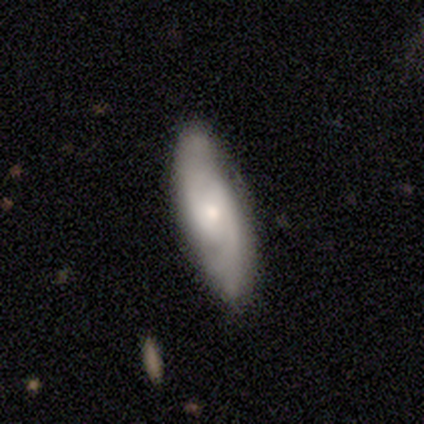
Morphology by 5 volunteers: smooth 60%, featured or disk 40%, star or artifact 0%. Down the decision tree: how rounded — in between (67%); merging — none (100%).